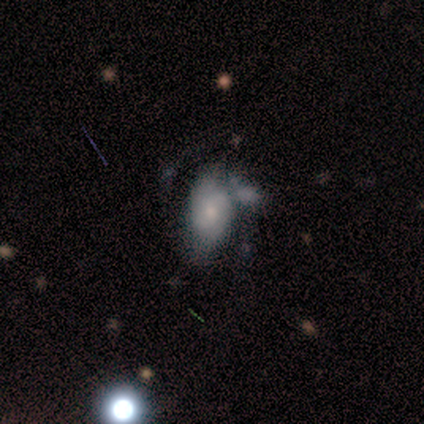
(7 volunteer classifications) Q: Smooth or featured?
A: featured or disk (57%); runner-up: smooth (43%)
Q: Edge-on disk?
A: no (100%)
Q: Bar?
A: no (75%); runner-up: weak (25%)
Q: Spiral arms?
A: yes (75%); runner-up: no (25%)
Q: Spiral winding?
A: tight (67%); runner-up: loose (33%)
Q: Spiral arm count?
A: 2 (67%); runner-up: 1 (33%)
Q: Bulge size?
A: small (50%); runner-up: dominant (25%)
Q: Merging?
A: major disturbance (57%); runner-up: minor disturbance (29%)